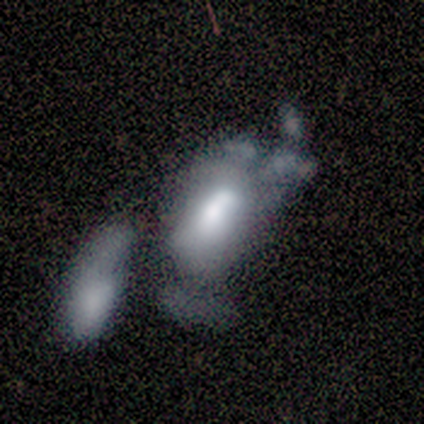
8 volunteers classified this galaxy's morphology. type=featured or disk (62%); edge-on=no (100%); bar=no (80%); spiral arms=no (80%); bulge=large (60%); merging=merger (50%).